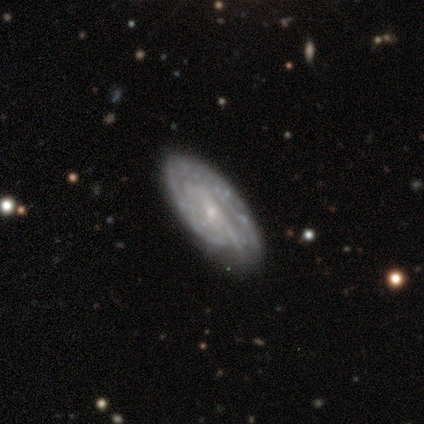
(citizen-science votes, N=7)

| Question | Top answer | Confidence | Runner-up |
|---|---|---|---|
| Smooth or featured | featured or disk | 71% | smooth (14%) |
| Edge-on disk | no | 100% | — |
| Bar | no | 80% | weak (20%) |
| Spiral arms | yes | 100% | — |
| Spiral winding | tight | 60% | loose (40%) |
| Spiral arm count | can't tell | 80% | 3 (20%) |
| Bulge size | small | 100% | — |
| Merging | minor disturbance | 50% | none (33%) |